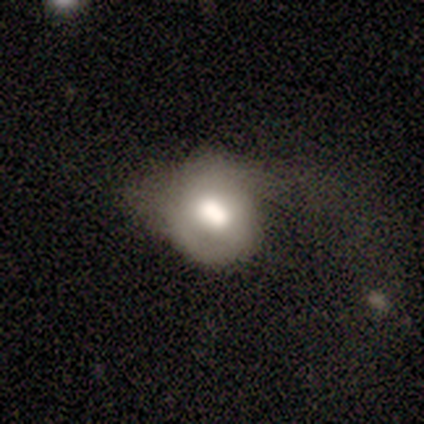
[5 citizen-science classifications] Morphology: type=smooth (60%); roundness=round (67%); merging=major disturbance (80%).